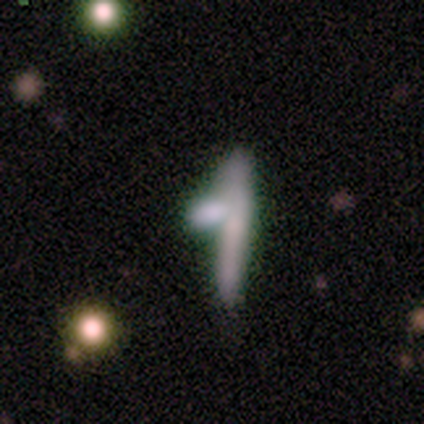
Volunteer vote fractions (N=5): smooth 60%, featured or disk 20%, star or artifact 20%. Down the decision tree: how rounded — cigar-shaped (100%); merging — minor disturbance (50%).